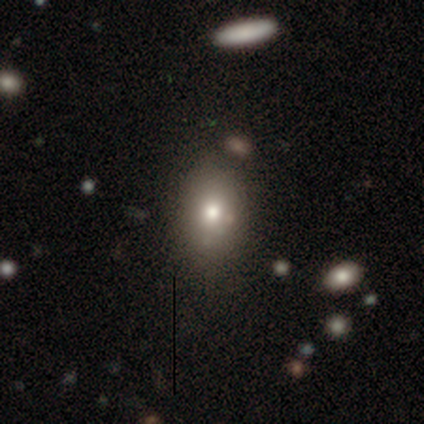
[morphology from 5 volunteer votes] A smooth galaxy with no disk features (40%, tied with featured or disk) that is round (50%, tied with in between). Merging: none (75%).